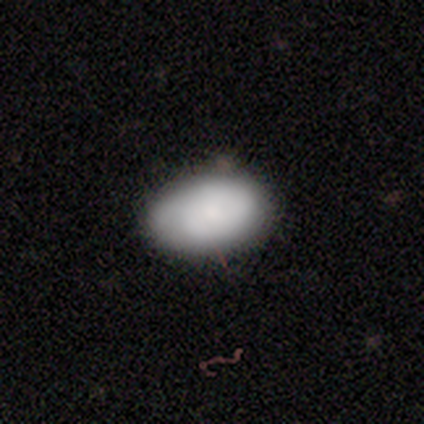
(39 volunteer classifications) This is likely a smooth galaxy (77%). How rounded: clearly in between (100%). Merging: clearly none (86%).